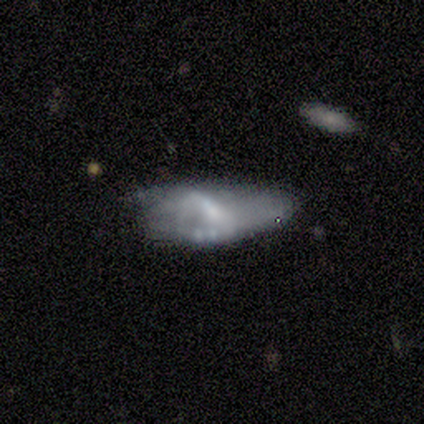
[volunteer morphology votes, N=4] type=featured or disk (100%); edge-on=no (100%); bar=weak (50%); spiral arms=yes (50%, tied with no); winding=medium (50%, tied with loose); arm count=2 (50%, tied with can't tell); bulge=small (50%); merging=minor disturbance (50%, tied with major disturbance).